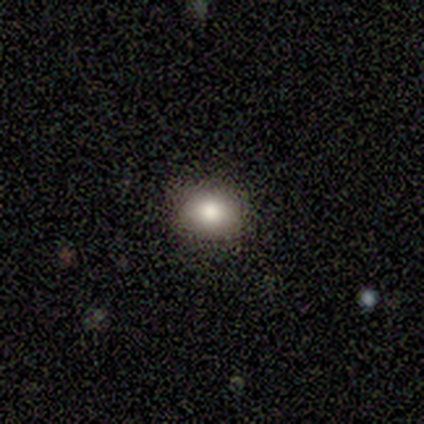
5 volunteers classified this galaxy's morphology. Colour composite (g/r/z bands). It shows a smooth galaxy with no disk features (80%) that is round (50%, tied with in between). Merging: none (80%).